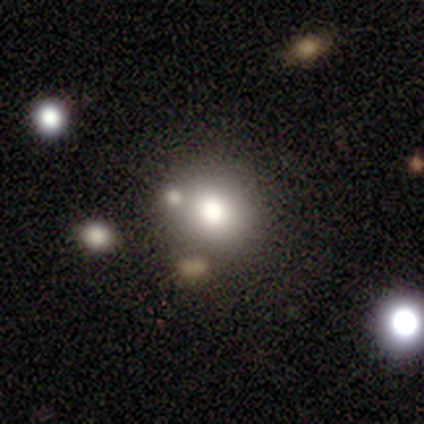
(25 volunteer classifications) This appears to be a smooth galaxy with no disk features (68%) that is round (65%). Merging: none (74%).